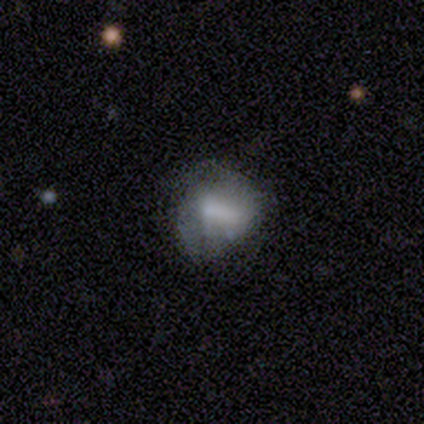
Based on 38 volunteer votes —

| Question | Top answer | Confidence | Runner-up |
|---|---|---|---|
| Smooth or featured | featured or disk | 50% | smooth (47%) |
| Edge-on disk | no | 100% | — |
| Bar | weak | 58% | strong (21%) |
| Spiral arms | no | 74% | yes (26%) |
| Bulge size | large | 37% | small (32%) |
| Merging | minor disturbance | 43% | none (38%) |